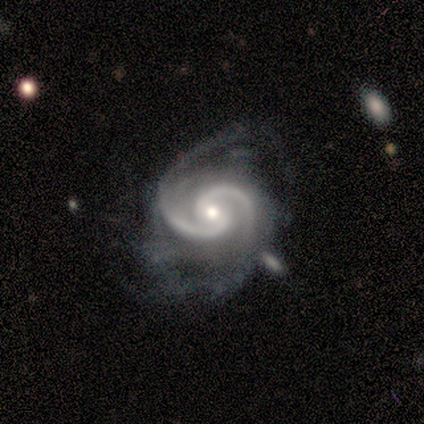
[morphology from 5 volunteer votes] Smooth or featured? 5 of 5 (100%) said featured or disk. Edge-on disk? 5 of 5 (100%) said no. Bar? 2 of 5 (40%, tied with weak) said strong. Spiral arms? 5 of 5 (100%) said yes. Spiral winding? 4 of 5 (80%) said medium. Spiral arm count? 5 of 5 (100%) said 2. Bulge size? 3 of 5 (60%) said small. Merging? 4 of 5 (80%) said none.